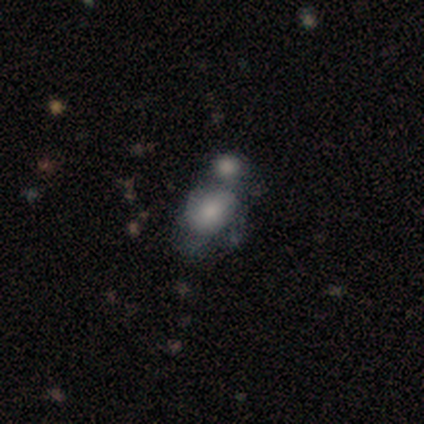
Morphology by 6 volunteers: Smooth or featured? smooth (67%)
How rounded? round (50%, tied with in between)
Merging? merger (60%)